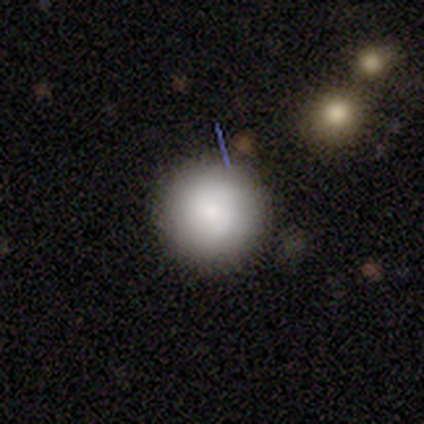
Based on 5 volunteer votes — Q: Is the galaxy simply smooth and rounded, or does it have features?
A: smooth — 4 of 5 (80%).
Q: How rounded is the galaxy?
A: round — 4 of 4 (100%).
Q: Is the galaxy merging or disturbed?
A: none — 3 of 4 (75%).